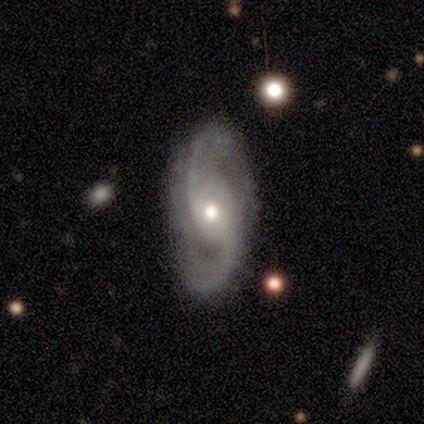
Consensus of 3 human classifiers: Smooth or featured? featured or disk (67%)
Edge-on disk? no (100%)
Bar? weak (50%, tied with no)
Spiral arms? yes (100%)
Spiral winding? tight (50%, tied with medium)
Spiral arm count? 2 (100%)
Bulge size? moderate (100%)
Merging? none (67%)